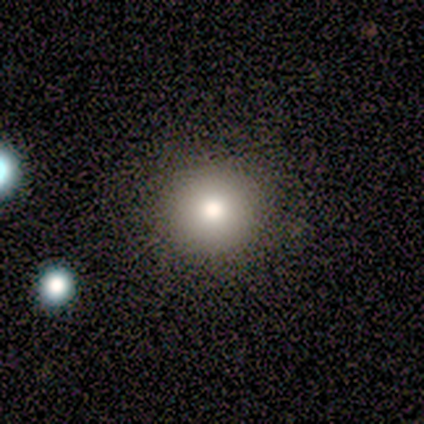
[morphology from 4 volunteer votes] Smooth or featured: smooth — 100%
How rounded: round — 75% (in between — 25%)
Merging: none — 100%